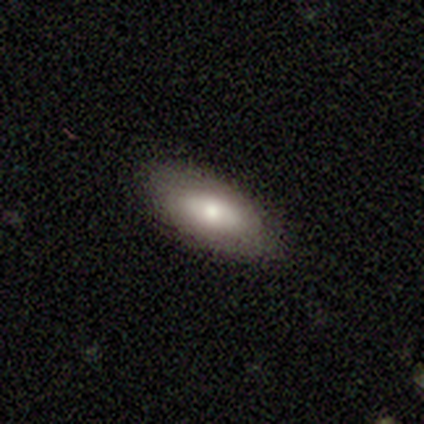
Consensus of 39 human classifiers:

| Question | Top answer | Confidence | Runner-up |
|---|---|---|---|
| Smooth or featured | smooth | 74% | featured or disk (23%) |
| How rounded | in between | 79% | cigar-shaped (17%) |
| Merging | none | 82% | minor disturbance (16%) |